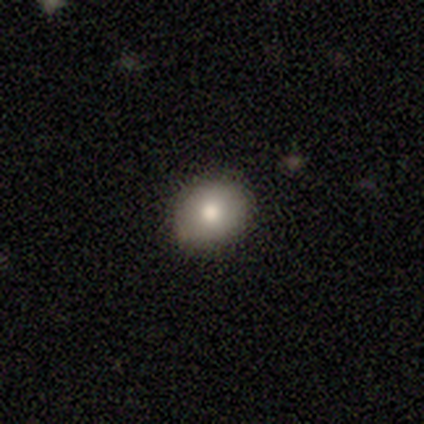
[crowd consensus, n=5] Smooth or featured?
  - smooth: 80% *
  - featured or disk: 20%
  - star or artifact: 0%
How rounded?
  - in between: 75% *
  - round: 25%
  - cigar-shaped: 0%
Merging?
  - none: 100% *
  - minor disturbance: 0%
  - major disturbance: 0%
  - merger: 0%